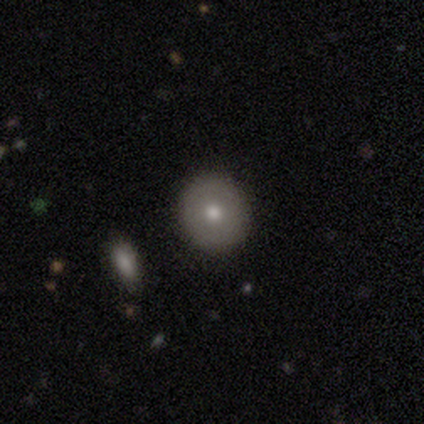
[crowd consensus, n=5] Morphology: type=featured or disk (60%); edge-on=no (100%); bar=no (100%); spiral arms=no (100%); bulge=moderate (67%); merging=none (60%).